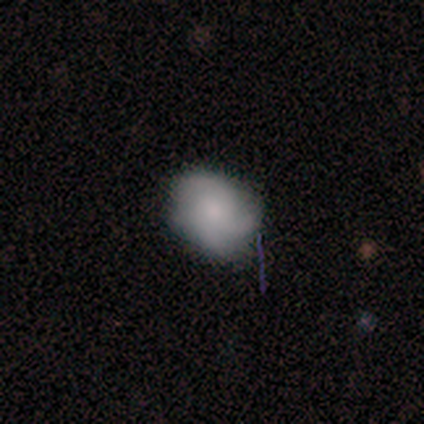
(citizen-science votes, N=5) Q: Smooth or featured?
A: smooth (80%); runner-up: star or artifact (20%)
Q: How rounded?
A: round (75%); runner-up: in between (25%)
Q: Merging?
A: none (75%); runner-up: minor disturbance (25%)